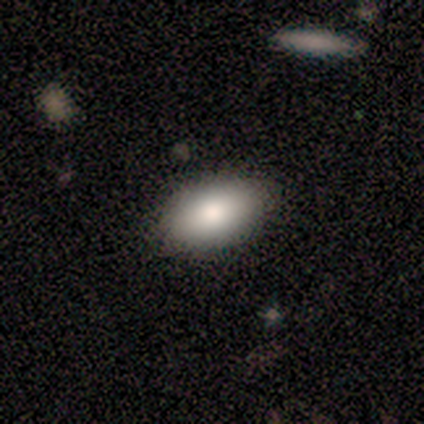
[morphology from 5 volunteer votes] Overall: smooth (80%). How rounded: in between (75%). Merging: none (80%).